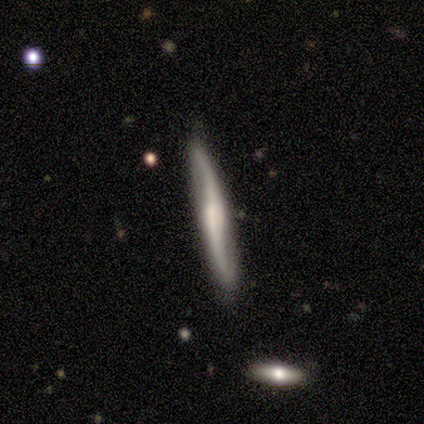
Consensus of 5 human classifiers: Smooth or featured? 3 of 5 (60%) said featured or disk. Edge-on disk? 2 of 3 (67%) said no. Bar? 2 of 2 (100%) said weak. Spiral arms? 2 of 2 (100%) said yes. Spiral winding? 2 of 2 (100%) said loose. Spiral arm count? 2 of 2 (100%) said 2. Bulge size? 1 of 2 (50%, tied with none) said small. Merging? 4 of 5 (80%) said none.